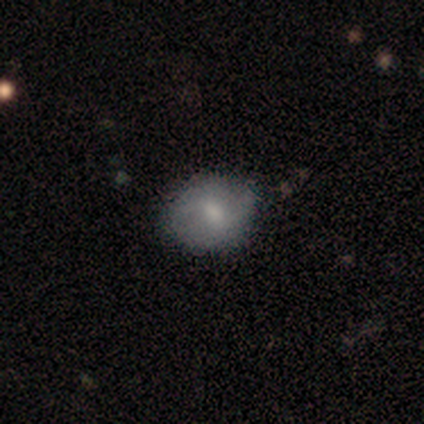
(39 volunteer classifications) Volunteers were most divided on "smooth or featured": smooth: 64%, featured or disk: 31%, star or artifact: 5%. More confident: merging — none (86%); how rounded — round (84%).